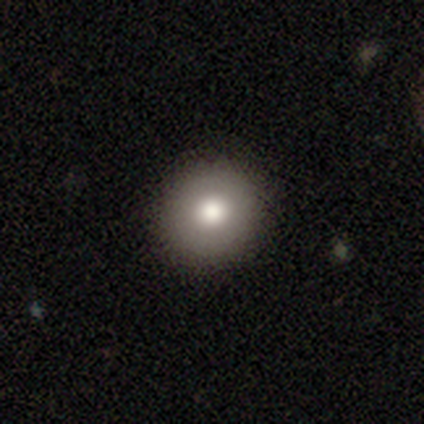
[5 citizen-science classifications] smooth-or-featured: smooth: 60% | featured or disk: 20% | star or artifact: 20%
  how-rounded: round: 100% | in between: 0% | cigar-shaped: 0%
  merging: none: 100% | minor disturbance: 0% | major disturbance: 0% | merger: 0%